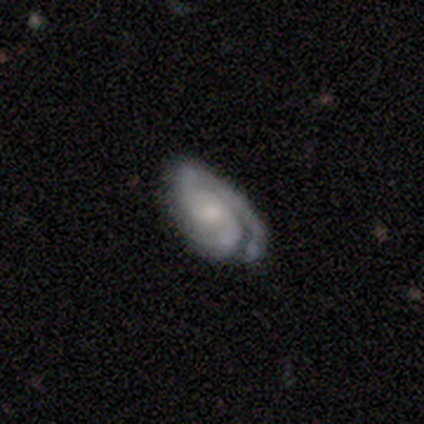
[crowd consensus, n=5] A featured or disk galaxy (100%) with a weak bar (60%), 3 (40%) medium (60%) spiral arms (100%) and a small central bulge (60%).

Vote fractions:
- Smooth or featured? featured or disk: 100% / smooth: 0% / star or artifact: 0%
- Edge-on disk? no: 100% / yes: 0%
- Bar? weak: 60% / no: 40% / strong: 0%
- Spiral arms? yes: 100% / no: 0%
- Spiral winding? medium: 60% / tight: 40% / loose: 0%
- Spiral arm count? 3: 40% / 1: 20% / 2: 20% / can't tell: 20% / 4: 0% / more than 4: 0%
- Bulge size? small: 60% / moderate: 40% / dominant: 0% / large: 0% / none: 0%
- Merging? none: 40% (tied) / minor disturbance: 40% (tied) / merger: 20% / major disturbance: 0%